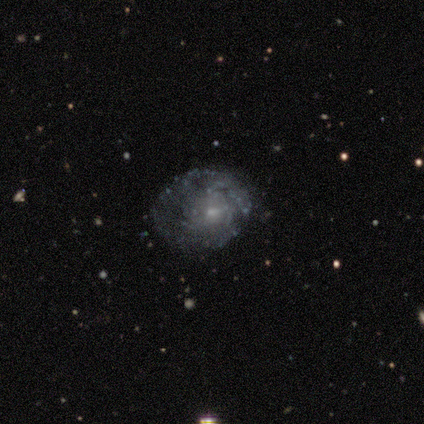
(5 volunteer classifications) This is clearly a featured or disk galaxy (100%). It is clearly not viewed edge-on (100%). Bar: clearly no (80%). Spiral arm pattern: clearly yes (80%). Spiral arm count: possibly can't tell (50%). Spiral winding: likely tight (75%). Central bulge: clearly small (80%). Merging: clearly none (80%).